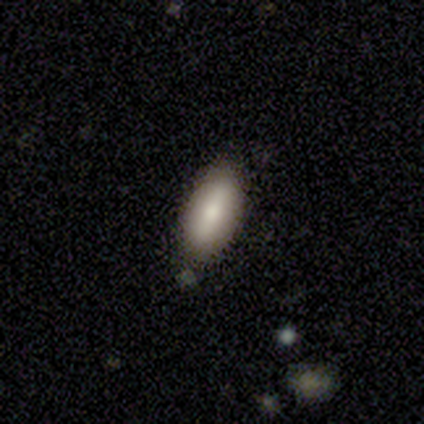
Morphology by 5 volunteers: Smooth or featured? smooth (80%)
How rounded? in between (75%)
Merging? none (60%)